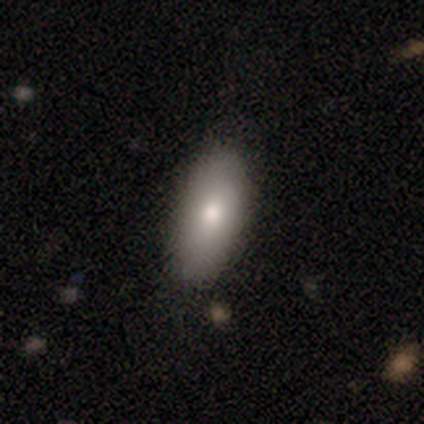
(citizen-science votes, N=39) Volunteers were most divided on "smooth or featured": smooth: 74%, featured or disk: 18%, star or artifact: 8%. More confident: how rounded — in between (97%); merging — none (78%).